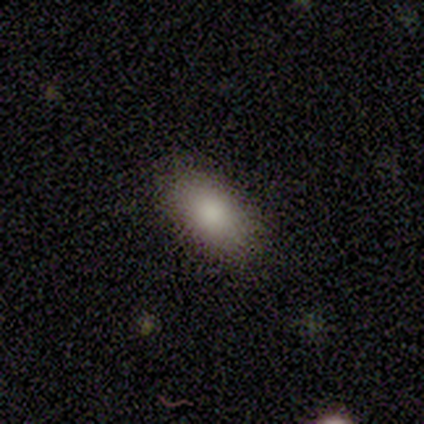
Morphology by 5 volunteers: Smooth or featured?
  - smooth: 80% *
  - star or artifact: 20%
  - featured or disk: 0%
How rounded?
  - in between: 100% *
  - round: 0%
  - cigar-shaped: 0%
Merging?
  - none: 75% *
  - major disturbance: 25%
  - minor disturbance: 0%
  - merger: 0%